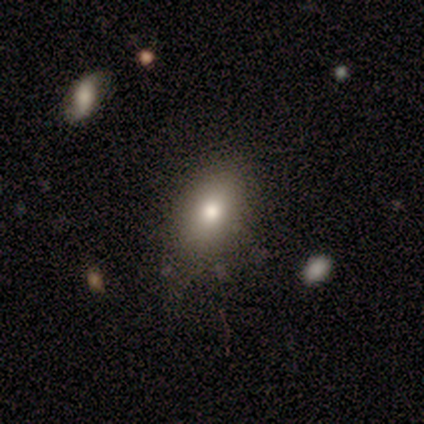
Smooth or featured?
  - smooth: 72% *
  - featured or disk: 15%
  - star or artifact: 13%
How rounded?
  - in between: 82% *
  - round: 14%
  - cigar-shaped: 4%
Merging?
  - none: 82% *
  - minor disturbance: 18%
  - major disturbance: 0%
  - merger: 0%